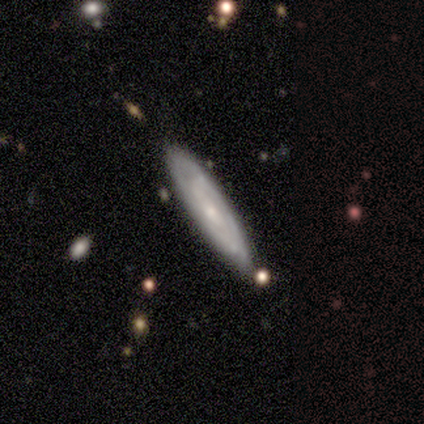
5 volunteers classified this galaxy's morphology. A featured or disk galaxy (100%) with no bar (67%), tight (100%) spiral arms (67%) and a small central bulge (67%). Merging: none (60%).